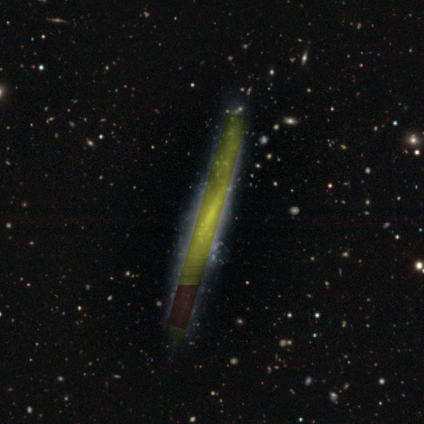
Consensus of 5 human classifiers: smooth_or_featured: star or artifact (p=0.60) [alt: featured or disk p=0.40]